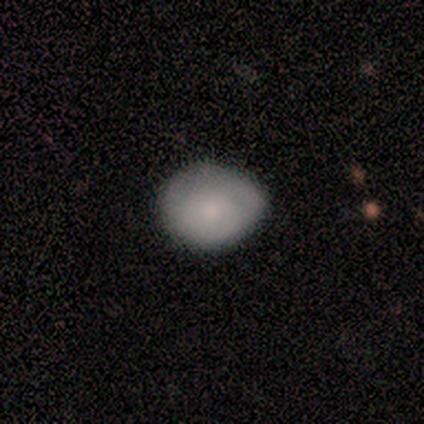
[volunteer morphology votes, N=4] This is clearly a smooth galaxy (100%). How rounded: clearly in between (100%). Merging: likely none (75%).